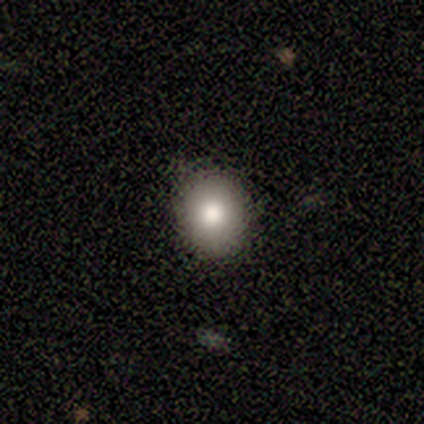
Smooth or featured: smooth — 70% (featured or disk — 30%)
How rounded: round — 57% (in between — 43%)
Merging: none — 90% (minor disturbance — 10%)